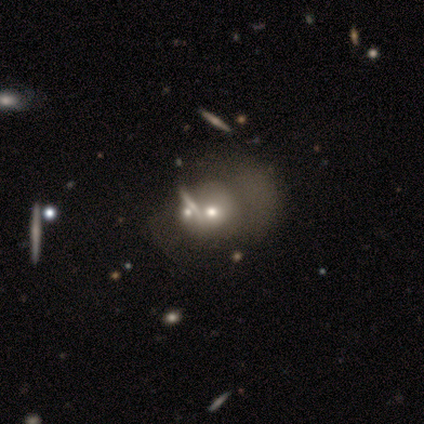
Smooth or featured? featured or disk (60%)
Edge-on disk? no (100%)
Bar? no (100%)
Spiral arms? no (67%)
Bulge size? moderate (67%)
Merging? minor disturbance (40%, tied with merger)